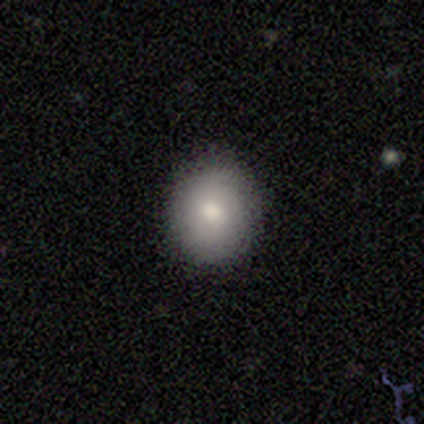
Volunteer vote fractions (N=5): Smooth or featured?
  - smooth: 80% *
  - featured or disk: 20%
  - star or artifact: 0%
How rounded?
  - round: 75% *
  - in between: 25%
  - cigar-shaped: 0%
Merging?
  - none: 100% *
  - minor disturbance: 0%
  - major disturbance: 0%
  - merger: 0%